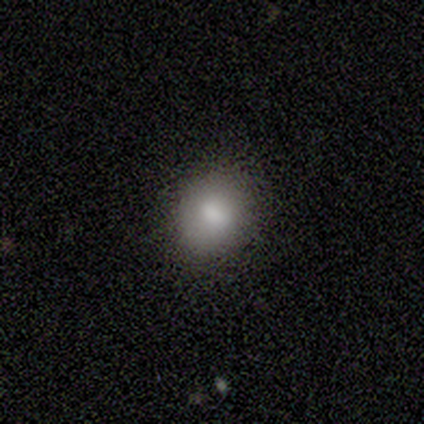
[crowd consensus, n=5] Q: Smooth or featured?
A: smooth (80%); runner-up: featured or disk (20%)
Q: How rounded?
A: round (50%); runner-up: in between (25%)
Q: Merging?
A: none (80%); runner-up: minor disturbance (20%)